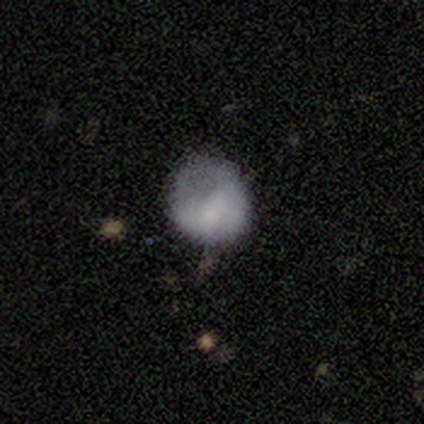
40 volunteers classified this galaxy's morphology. Overall: smooth (57%; featured or disk 30%). How rounded: round (83%). Merging: none (37%; major disturbance 34%).